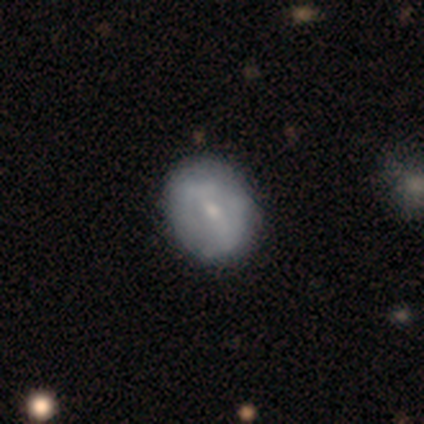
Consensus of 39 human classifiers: Smooth or featured?
  - featured or disk: 49% *
  - smooth: 44%
  - star or artifact: 8%
Edge-on disk?
  - no: 100% *
  - yes: 0%
Bar?
  - weak: 63% *
  - strong: 21%
  - no: 16%
Spiral arms?
  - no: 74% *
  - yes: 26%
Bulge size?
  - small: 63% *
  - moderate: 26%
  - none: 11%
  - dominant: 0%
  - large: 0%
Merging?
  - none: 53% *
  - minor disturbance: 22%
  - major disturbance: 0%
  - merger: 0%